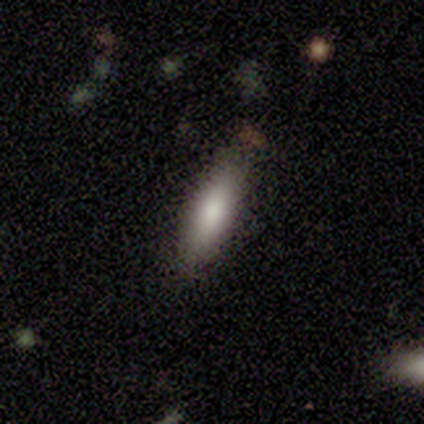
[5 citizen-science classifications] Morphology: type=smooth (100%); roundness=in between (60%); merging=none (80%).